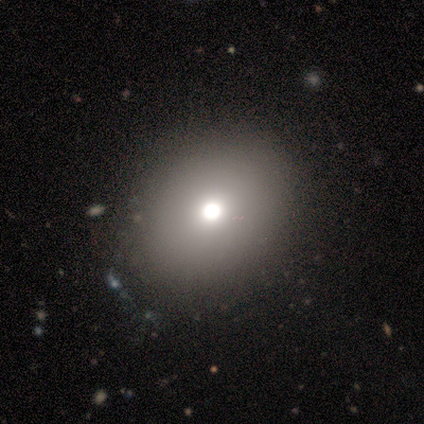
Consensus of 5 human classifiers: smooth_or_featured: smooth (p=0.80) [alt: featured or disk p=0.20]
how_rounded: round (p=0.50) [tied with: in between p=0.50]
merging: none (p=1.00)